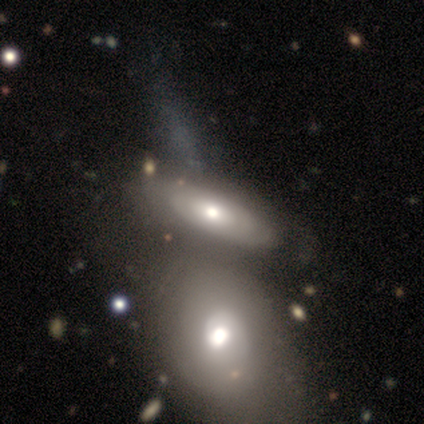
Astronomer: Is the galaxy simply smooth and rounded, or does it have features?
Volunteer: smooth — 50% (runner-up: featured or disk, 45%).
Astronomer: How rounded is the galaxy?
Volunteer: in between — 87%.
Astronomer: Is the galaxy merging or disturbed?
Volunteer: merger — 51%.